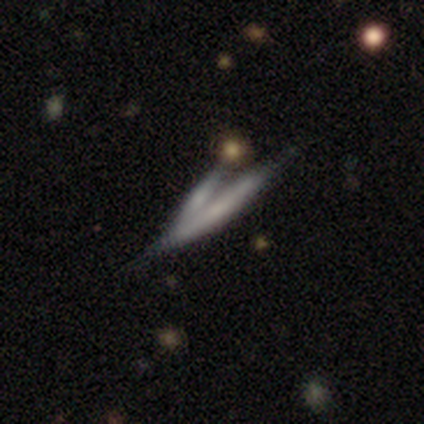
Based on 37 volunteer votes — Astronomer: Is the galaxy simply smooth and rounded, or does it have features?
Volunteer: featured or disk — 57% (runner-up: smooth, 35%).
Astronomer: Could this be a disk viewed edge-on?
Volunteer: yes — 81%.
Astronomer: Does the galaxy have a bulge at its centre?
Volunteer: none — 59% (runner-up: rounded, 35%).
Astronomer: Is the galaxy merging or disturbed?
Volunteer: merger — 59%.